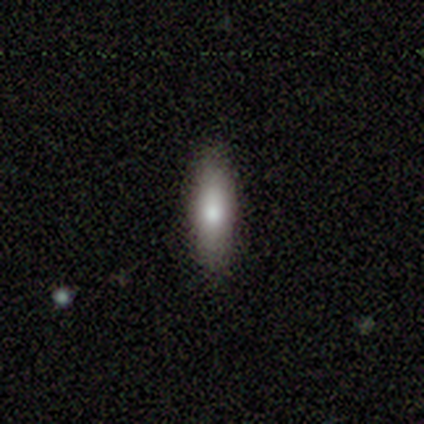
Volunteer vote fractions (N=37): Smooth or featured? smooth (76%)
How rounded? cigar-shaped (64%)
Merging? none (85%)